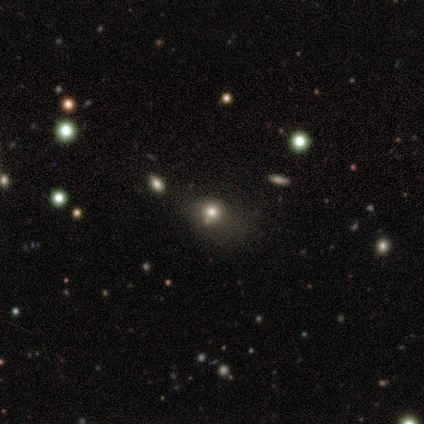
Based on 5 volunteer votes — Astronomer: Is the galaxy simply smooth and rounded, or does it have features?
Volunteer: smooth — 80%.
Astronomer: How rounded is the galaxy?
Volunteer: in between — 75%.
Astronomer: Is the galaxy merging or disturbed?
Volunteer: major disturbance — 50%.